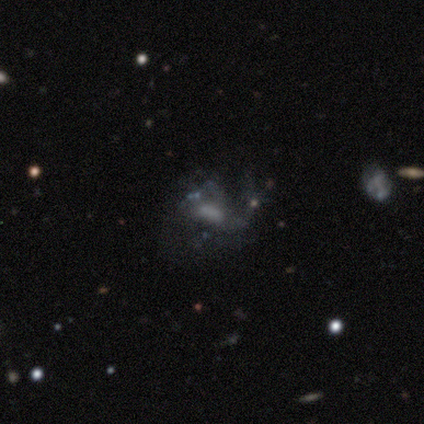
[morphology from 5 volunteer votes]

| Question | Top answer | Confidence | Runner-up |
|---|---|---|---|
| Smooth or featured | featured or disk | 60% | smooth (20%) |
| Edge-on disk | no | 100% | — |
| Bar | no | 67% | strong (33%) |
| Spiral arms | yes | 100% | — |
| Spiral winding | loose | 100% | — |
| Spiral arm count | can't tell | 67% | 1 (33%) |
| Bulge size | none | 67% | large (33%) |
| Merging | major disturbance | 75% | none (25%) |